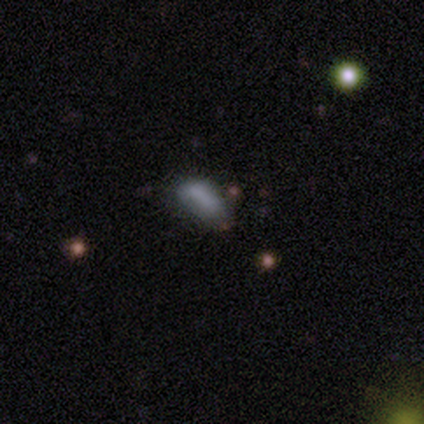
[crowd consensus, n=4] Smooth or featured? 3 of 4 (75%) said smooth. How rounded? 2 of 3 (67%) said in between. Merging? 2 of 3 (67%) said minor disturbance.